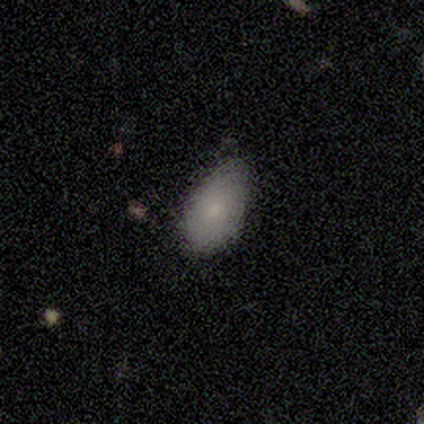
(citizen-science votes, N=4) smooth-or-featured: smooth: 50% (tied) | featured or disk: 50% (tied) | star or artifact: 0%
  how-rounded: in between: 100% | round: 0% | cigar-shaped: 0%
  merging: none: 50% | minor disturbance: 25% | major disturbance: 25% | merger: 0%